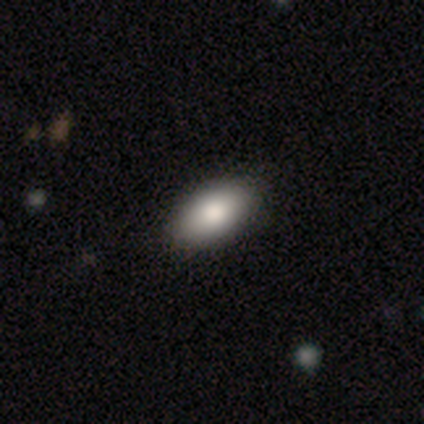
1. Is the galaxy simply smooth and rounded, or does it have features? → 100% smooth, 0% featured or disk, 0% star or artifact.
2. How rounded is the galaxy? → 100% in between, 0% round, 0% cigar-shaped.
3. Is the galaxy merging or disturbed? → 100% none, 0% minor disturbance, 0% major disturbance, 0% merger.